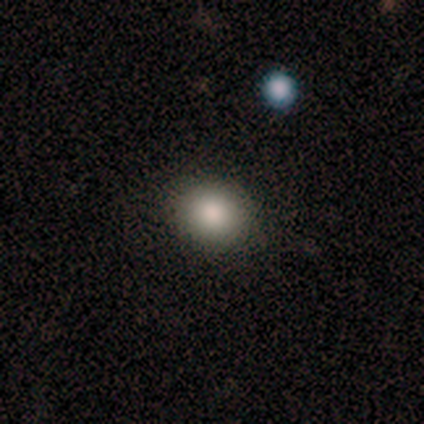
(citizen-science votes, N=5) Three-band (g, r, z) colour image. It shows a smooth galaxy with no disk features (100%) that is round (80%). Merging: none (100%).